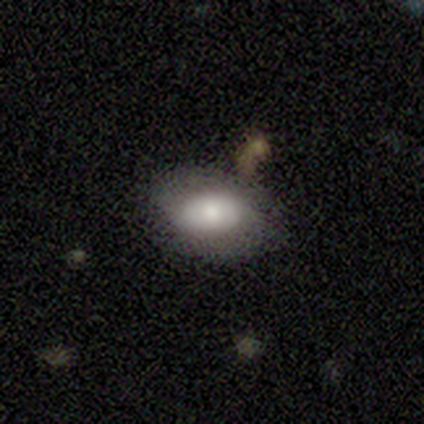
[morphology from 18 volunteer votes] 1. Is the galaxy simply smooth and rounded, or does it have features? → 78% smooth, 17% featured or disk, 6% star or artifact.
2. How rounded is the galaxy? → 100% in between, 0% round, 0% cigar-shaped.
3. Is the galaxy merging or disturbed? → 82% none, 12% minor disturbance, 6% merger, 0% major disturbance.